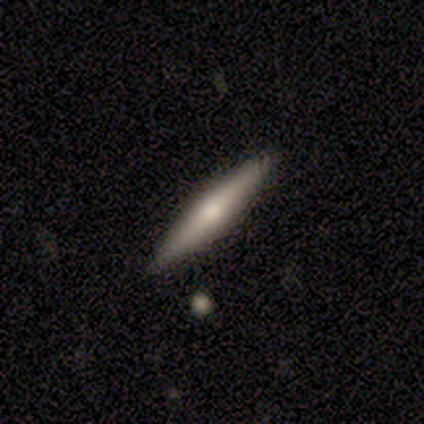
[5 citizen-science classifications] Q: Smooth or featured?
A: featured or disk (60%); runner-up: smooth (40%)
Q: Edge-on disk?
A: yes (100%)
Q: Edge-on bulge?
A: rounded (100%)
Q: Merging?
A: none (80%); runner-up: minor disturbance (20%)